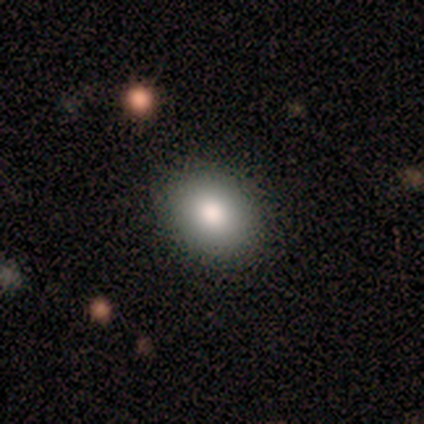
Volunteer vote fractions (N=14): Smooth or featured? 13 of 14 (93%) said smooth. How rounded? 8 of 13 (62%) said in between. Merging? 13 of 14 (93%) said none.